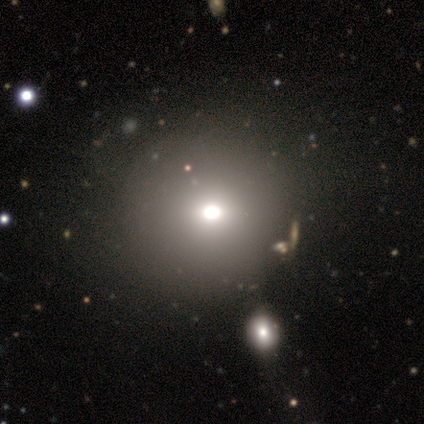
Morphology: type=star or artifact (60%).